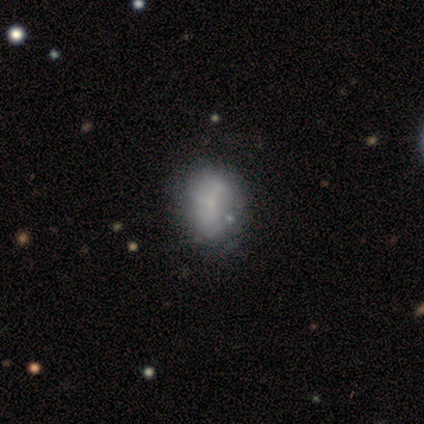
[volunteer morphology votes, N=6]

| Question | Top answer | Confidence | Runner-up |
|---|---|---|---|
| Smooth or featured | smooth | 50% | featured or disk (33%) |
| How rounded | round | 67% | in between (33%) |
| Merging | none | 60% | minor disturbance (40%) |